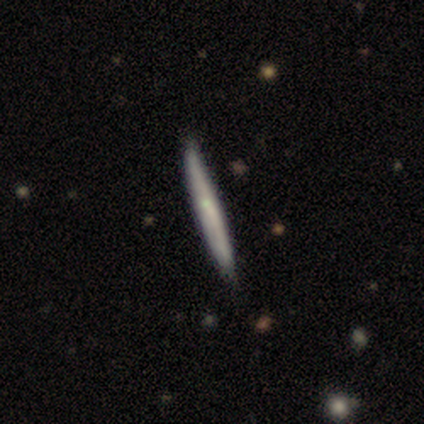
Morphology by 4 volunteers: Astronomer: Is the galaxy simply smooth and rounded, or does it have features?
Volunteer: smooth — 50%, tied with featured or disk at 50%.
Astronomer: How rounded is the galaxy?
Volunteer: cigar-shaped — 100%.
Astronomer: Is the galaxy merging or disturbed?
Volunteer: none — 75%.